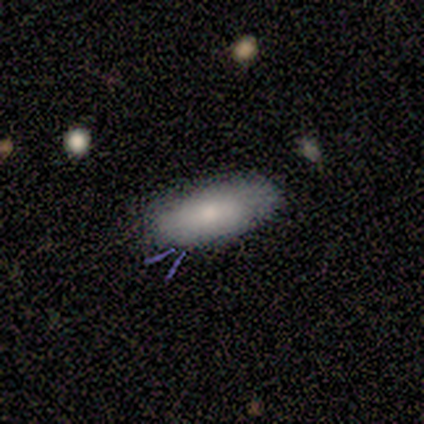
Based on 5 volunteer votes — smooth_or_featured: smooth (p=0.80) [alt: featured or disk p=0.20]
how_rounded: in between (p=1.00)
merging: none (p=1.00)